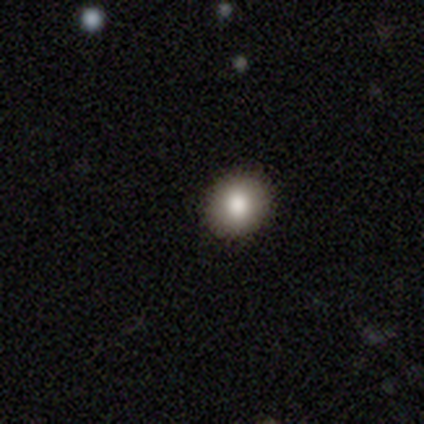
This appears to be a smooth galaxy with no disk features (100%) that is round (50%, tied with in between). Merging: none (100%).